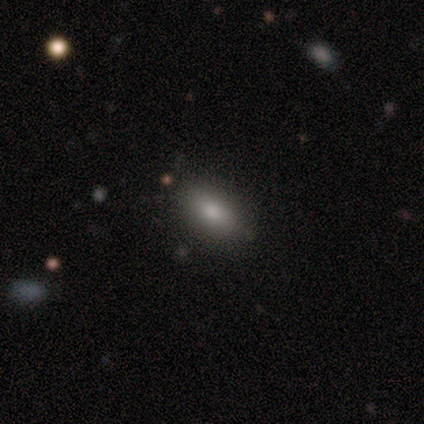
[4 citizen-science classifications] Overall: smooth (100%). How rounded: in between (75%). Merging: none (50%, tied with minor disturbance).